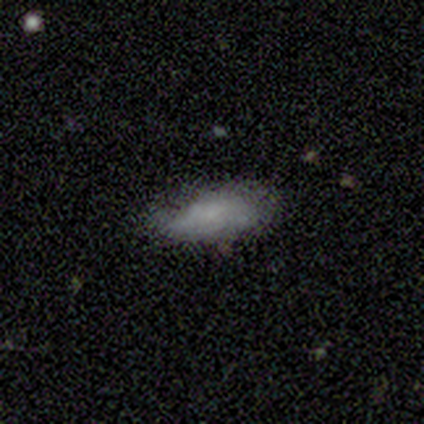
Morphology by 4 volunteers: Overall: smooth (75%). How rounded: in between (100%). Merging: minor disturbance (75%).